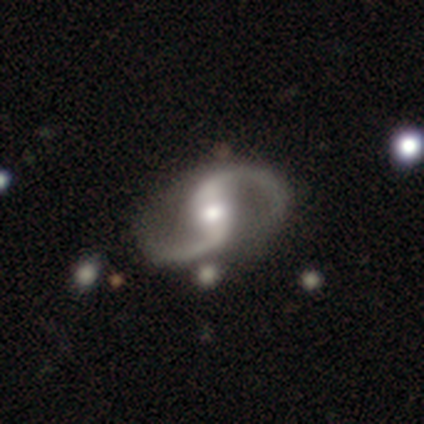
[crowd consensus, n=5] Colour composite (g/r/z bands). It shows a featured or disk galaxy (100%) with a weak bar (60%), 2 (100%) loose (60%) spiral arms (100%) and a moderate central bulge (80%). Merging: none (100%).